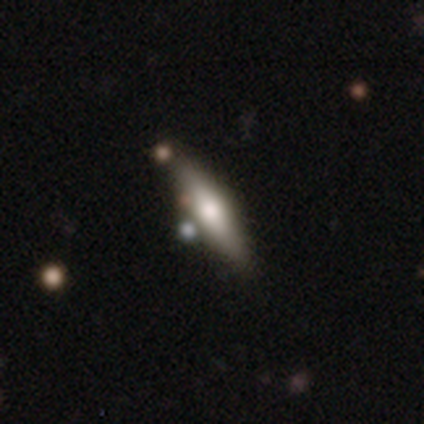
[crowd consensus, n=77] Smooth or featured? smooth (52%)
How rounded? cigar-shaped (70%)
Merging? none (44%)